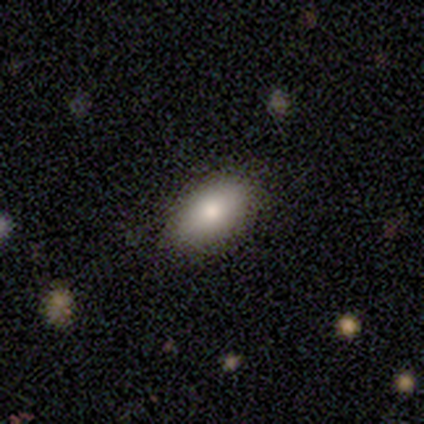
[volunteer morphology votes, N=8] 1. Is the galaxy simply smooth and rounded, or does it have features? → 50% smooth (tied), 50% featured or disk (tied), 0% star or artifact.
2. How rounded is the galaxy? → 100% in between, 0% round, 0% cigar-shaped.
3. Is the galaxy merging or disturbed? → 100% none, 0% minor disturbance, 0% major disturbance, 0% merger.